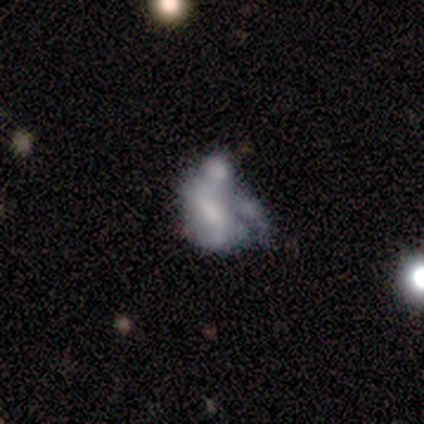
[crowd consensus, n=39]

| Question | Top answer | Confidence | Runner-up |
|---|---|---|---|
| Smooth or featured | featured or disk | 69% | smooth (21%) |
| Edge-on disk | no | 96% | yes (4%) |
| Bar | no | 62% | weak (27%) |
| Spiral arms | no | 65% | yes (35%) |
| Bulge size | moderate | 35% | none (27%) |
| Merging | major disturbance | 37% | none (29%) |